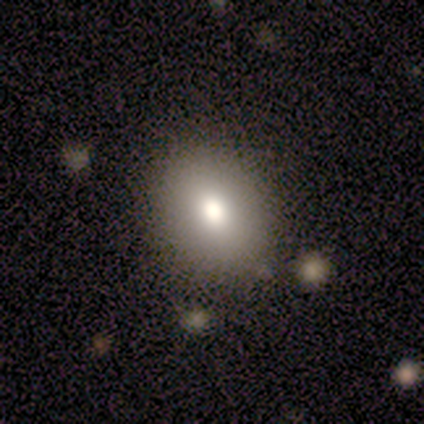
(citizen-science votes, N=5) Volunteers were most divided on "how rounded": in between: 75%, round: 25%, cigar-shaped: 0%. More confident: smooth or featured — smooth (80%); merging — none (75%).